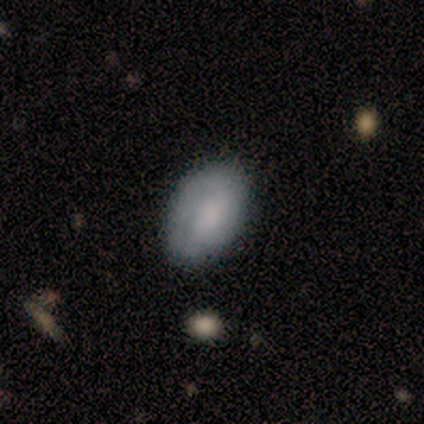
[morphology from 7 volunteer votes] type=smooth (86%); roundness=in between (100%); merging=none (67%).